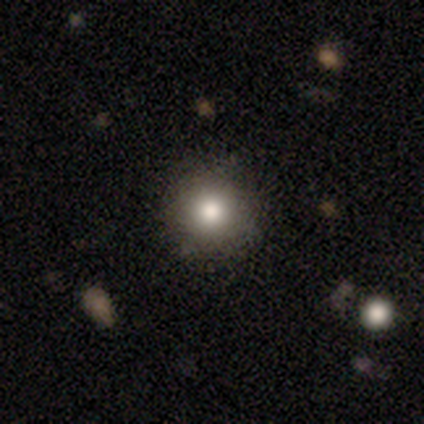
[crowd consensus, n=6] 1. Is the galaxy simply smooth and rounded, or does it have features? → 83% smooth, 17% featured or disk, 0% star or artifact.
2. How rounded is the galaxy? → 100% round, 0% in between, 0% cigar-shaped.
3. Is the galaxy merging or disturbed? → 100% none, 0% minor disturbance, 0% major disturbance, 0% merger.